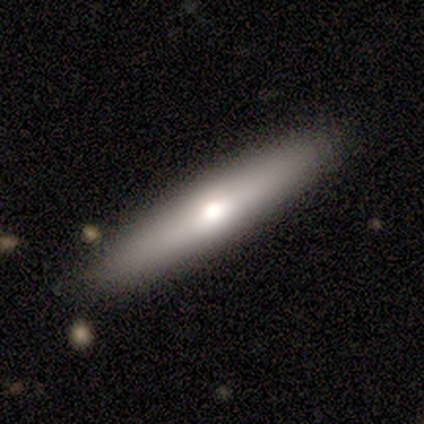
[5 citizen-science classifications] Overall: smooth (80%). How rounded: cigar-shaped (75%). Merging: none (80%).